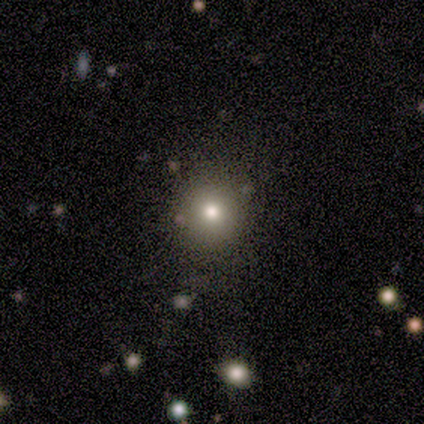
Overall: smooth (80%). How rounded: round (100%). Merging: none (100%).